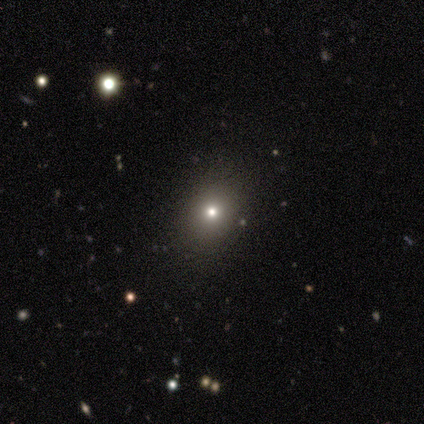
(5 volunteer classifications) Morphology: type=smooth (80%); roundness=in between (50%); merging=none (75%).